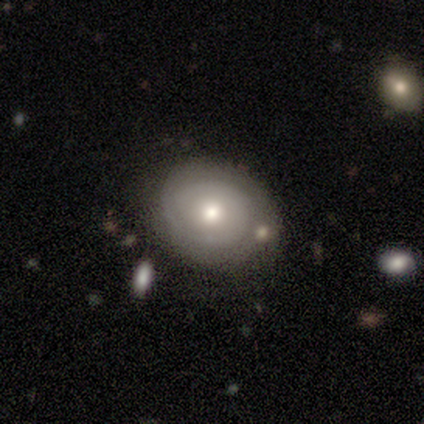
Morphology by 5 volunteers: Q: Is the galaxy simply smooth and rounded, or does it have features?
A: featured or disk — 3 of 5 (60%).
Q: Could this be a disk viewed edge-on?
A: no — 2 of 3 (67%).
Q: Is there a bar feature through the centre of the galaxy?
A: no — 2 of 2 (100%).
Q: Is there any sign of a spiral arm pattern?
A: yes — 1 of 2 (50%, tied with no).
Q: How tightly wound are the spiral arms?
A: tight — 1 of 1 (100%).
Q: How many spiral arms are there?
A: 2 — 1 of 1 (100%).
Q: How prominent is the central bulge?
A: moderate — 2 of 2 (100%).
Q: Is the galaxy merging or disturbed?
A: none — 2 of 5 (40%, tied with minor disturbance).